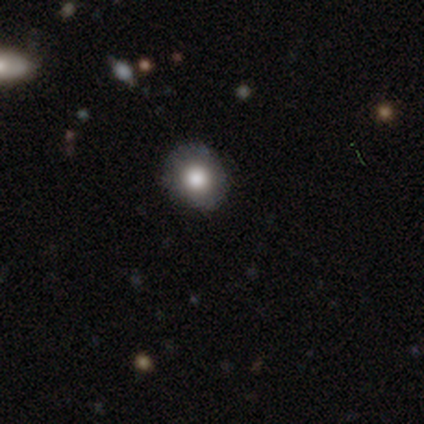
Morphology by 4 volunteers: Smooth or featured? 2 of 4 (50%, tied with featured or disk) said smooth. How rounded? 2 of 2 (100%) said round. Merging? 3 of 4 (75%) said none.